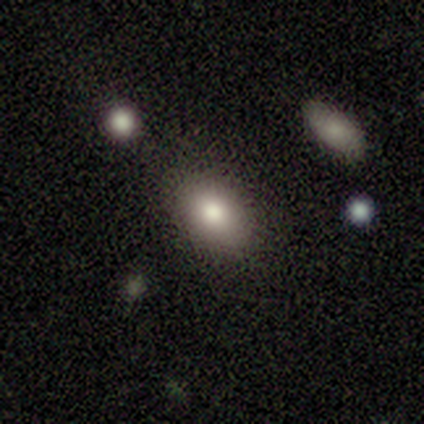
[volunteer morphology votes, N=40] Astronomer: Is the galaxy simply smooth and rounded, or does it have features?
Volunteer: smooth — 82%.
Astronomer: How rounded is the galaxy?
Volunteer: in between — 85%.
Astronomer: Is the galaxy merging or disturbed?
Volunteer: none — 92%.